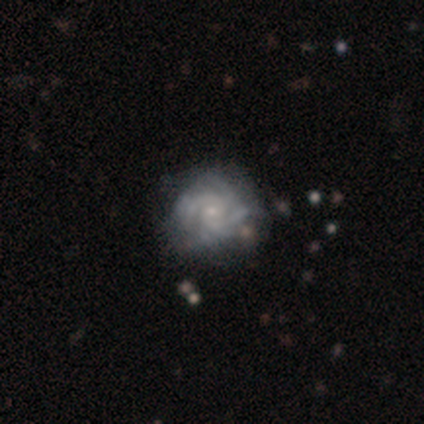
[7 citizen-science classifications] Smooth or featured: featured or disk — 86% (smooth — 14%)
Edge-on disk: no — 100%
Bar: weak — 50% (tied with no — 50%)
Spiral arms: yes — 100%
Spiral winding: tight — 100%
Spiral arm count: 4 — 50% (tied with can't tell — 50%)
Bulge size: moderate — 50% (tied with small — 50%)
Merging: none — 86% (minor disturbance — 14%)